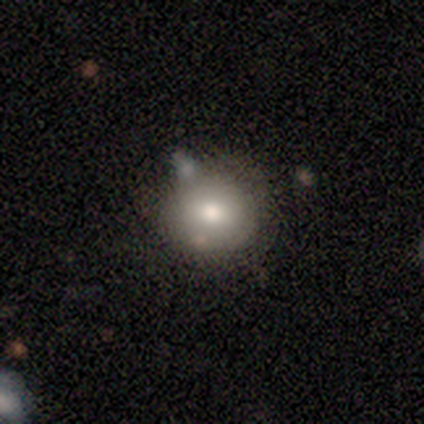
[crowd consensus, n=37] This appears to be a smooth galaxy with no disk features (81%) that is round (80%). Merging: none (64%).